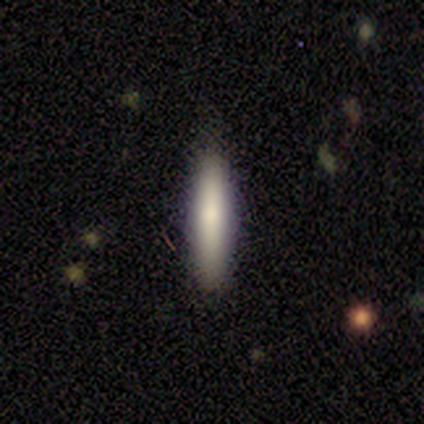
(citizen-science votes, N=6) Q: Smooth or featured?
A: smooth (100%)
Q: How rounded?
A: cigar-shaped (100%)
Q: Merging?
A: none (100%)